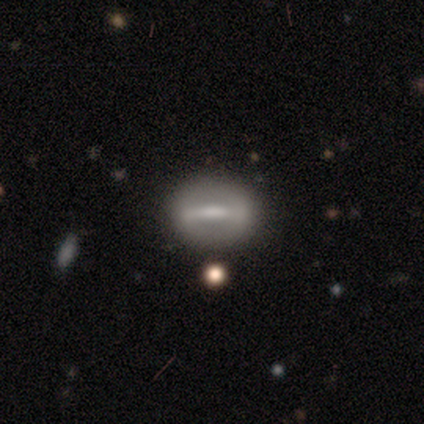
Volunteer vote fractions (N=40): smooth_or_featured: featured or disk (p=0.60) [alt: smooth p=0.38]
disk_edge_on: no (p=0.71) [alt: yes p=0.29]
bar: strong (p=0.82) [alt: weak p=0.12]
has_spiral_arms: no (p=0.88) [alt: yes p=0.12]
bulge_size: moderate (p=0.35) [alt: none p=0.29]
merging: none (p=0.87) [alt: major disturbance p=0.08]